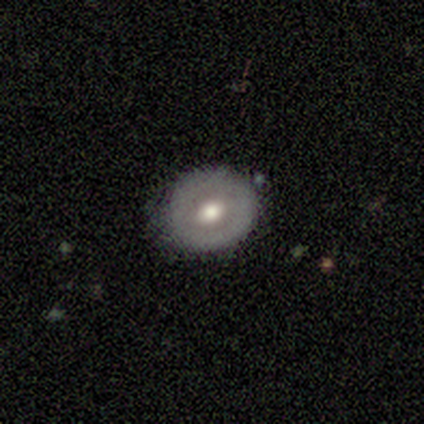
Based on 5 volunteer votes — A featured or disk galaxy (60%) with no bar (67%), no spiral arms (67%) and a moderate central bulge (100%). Merging: none (100%).